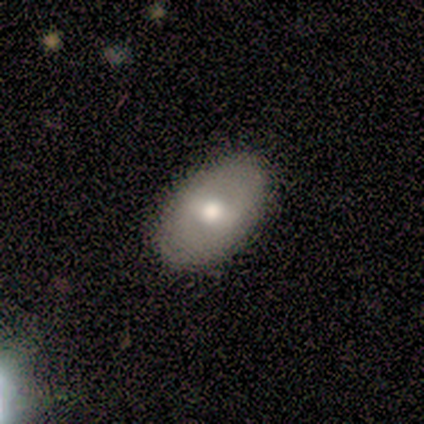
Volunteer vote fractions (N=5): Q: Smooth or featured?
A: smooth (60%); runner-up: featured or disk (40%)
Q: How rounded?
A: in between (100%)
Q: Merging?
A: none (100%)